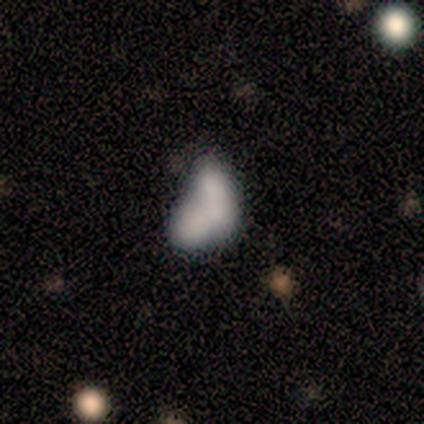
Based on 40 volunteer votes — A smooth galaxy with no disk features (70%) that is in between round and cigar-shaped (86%). Merging: merger (52%).